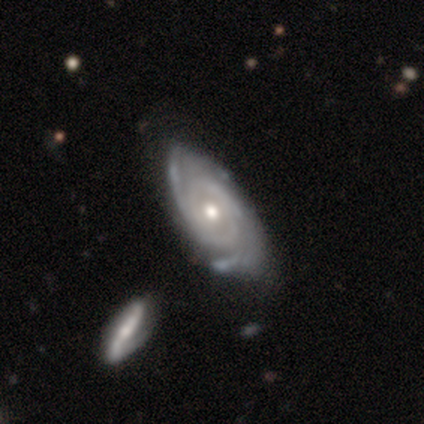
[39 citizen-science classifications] smooth_or_featured: featured or disk (p=0.95) [alt: smooth p=0.05]
disk_edge_on: no (p=0.97) [alt: yes p=0.03]
bar: no (p=0.72) [alt: weak p=0.17]
has_spiral_arms: yes (p=0.92) [alt: no p=0.08]
spiral_winding: tight (p=0.64) [alt: medium p=0.30]
spiral_arm_count: 2 (p=0.33) [alt: can't tell p=0.30]
bulge_size: moderate (p=0.72) [alt: small p=0.28]
merging: none (p=0.67) [alt: minor disturbance p=0.15]